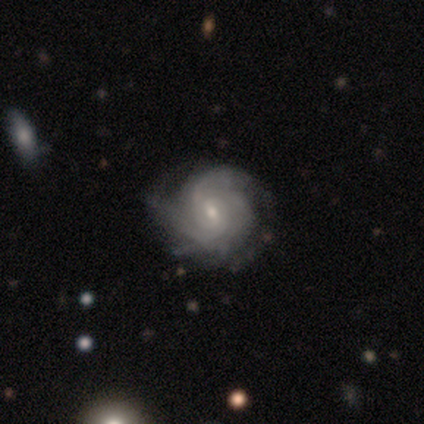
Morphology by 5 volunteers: Overall: featured or disk (80%). Edge-on disk: no (100%). Bar: weak (50%, tied with no). Spiral arms: yes (100%). Spiral arm count: 2 (25%, tied with 3, 4 and can't tell). Spiral winding: tight (50%, tied with medium). Bulge size: small (75%). Merging: none (75%).